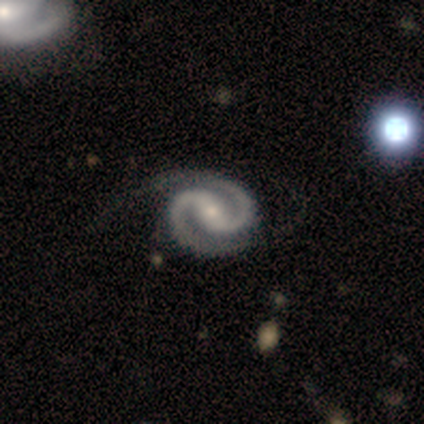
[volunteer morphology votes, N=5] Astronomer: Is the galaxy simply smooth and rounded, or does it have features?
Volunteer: featured or disk — 80%.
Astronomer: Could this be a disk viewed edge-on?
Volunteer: no — 100%.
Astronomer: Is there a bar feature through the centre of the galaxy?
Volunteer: weak — 50%.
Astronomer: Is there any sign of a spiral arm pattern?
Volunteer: yes — 100%.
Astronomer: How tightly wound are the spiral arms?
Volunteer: tight — 50%.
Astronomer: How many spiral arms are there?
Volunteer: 2 — 100%.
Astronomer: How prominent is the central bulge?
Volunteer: small — 100%.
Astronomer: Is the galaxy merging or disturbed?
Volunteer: minor disturbance — 75%.